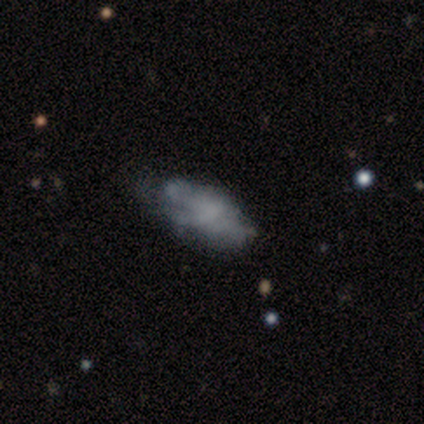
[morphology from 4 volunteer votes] Q: Smooth or featured?
A: smooth (75%); runner-up: featured or disk (25%)
Q: How rounded?
A: in between (100%)
Q: Merging?
A: none (75%); runner-up: minor disturbance (25%)